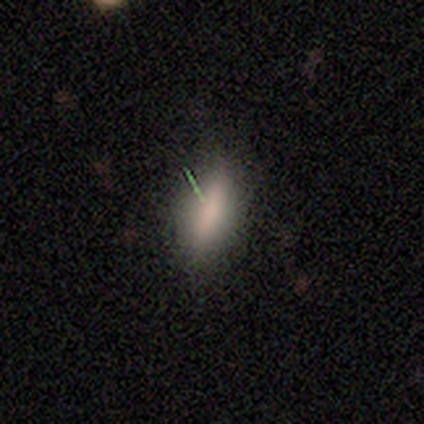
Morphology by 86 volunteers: Smooth or featured: smooth — 77% (featured or disk — 12%)
How rounded: in between — 50% (cigar-shaped — 48%)
Merging: none — 78% (minor disturbance — 16%)